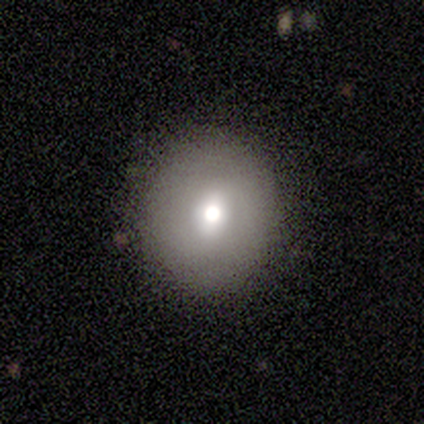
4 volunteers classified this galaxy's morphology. Overall: smooth (100%). How rounded: round (75%). Merging: none (100%).